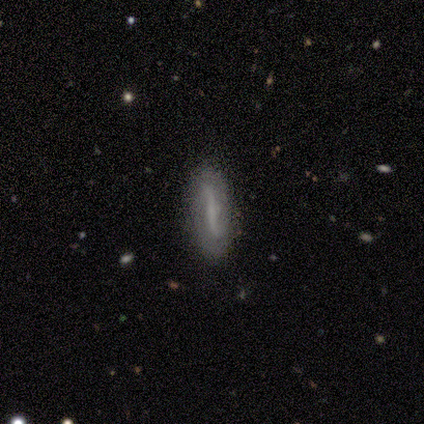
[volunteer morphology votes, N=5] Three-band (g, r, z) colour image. It shows a featured or disk galaxy (60%) viewed edge-on (67%) with a boxy central bulge (50%, tied with none). Merging: none (80%).